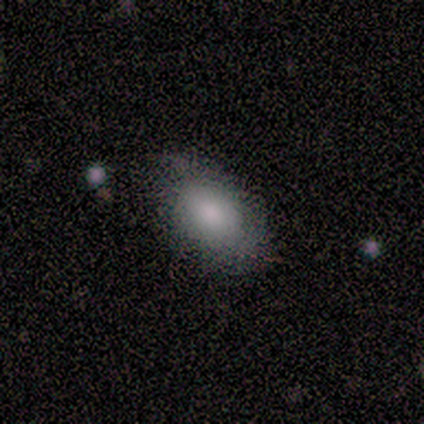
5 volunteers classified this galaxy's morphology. Smooth or featured?
  - smooth: 100% *
  - featured or disk: 0%
  - star or artifact: 0%
How rounded?
  - in between: 100% *
  - round: 0%
  - cigar-shaped: 0%
Merging?
  - none: 80% *
  - major disturbance: 20%
  - minor disturbance: 0%
  - merger: 0%